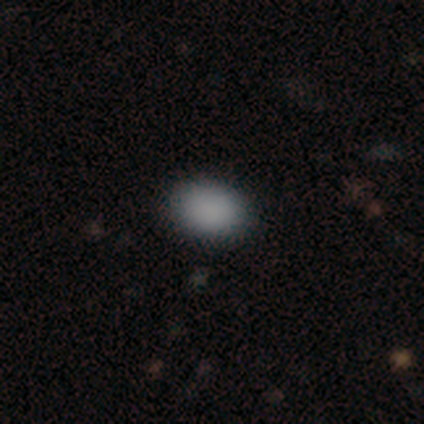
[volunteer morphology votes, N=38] This appears to be a smooth galaxy with no disk features (95%) that is in between round and cigar-shaped (72%). Merging: none (95%).